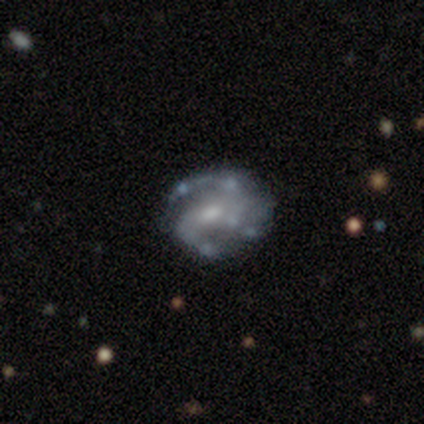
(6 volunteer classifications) Smooth or featured? 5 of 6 (83%) said featured or disk. Edge-on disk? 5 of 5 (100%) said no. Bar? 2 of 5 (40%, tied with no) said weak. Spiral arms? 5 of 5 (100%) said yes. Spiral winding? 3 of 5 (60%) said tight. Spiral arm count? 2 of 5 (40%) said 2. Bulge size? 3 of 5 (60%) said moderate. Merging? 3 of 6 (50%) said none.